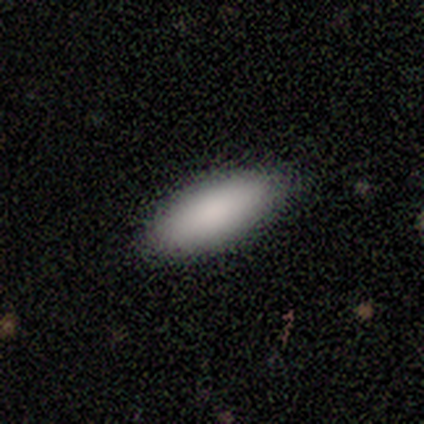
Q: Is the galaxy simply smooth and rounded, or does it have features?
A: smooth — 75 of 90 (83%).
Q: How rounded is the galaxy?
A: in between — 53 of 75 (71%).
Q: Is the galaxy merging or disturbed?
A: none — 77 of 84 (92%).